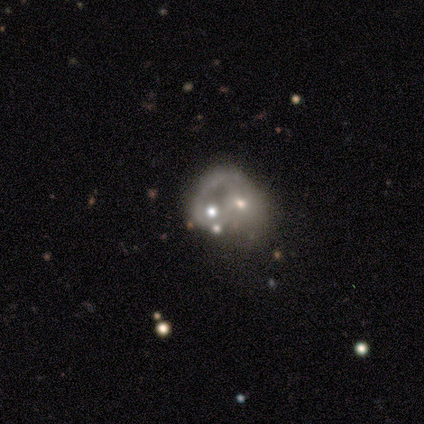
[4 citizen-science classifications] Volunteers were most divided on "smooth or featured" (2-way tie): featured or disk: 50%, star or artifact: 50%, smooth: 0%; "spiral arms" (2-way tie): yes: 50%, no: 50%; "bulge size" (2-way tie): moderate: 50%, small: 50%, dominant: 0%, large: 0%, none: 0%; "merging" (2-way tie): major disturbance: 50%, merger: 50%, none: 0%, minor disturbance: 0%. More confident: edge-on disk — no (100%); bar — no (100%); spiral winding — medium (100%); spiral arm count — 1 (100%).